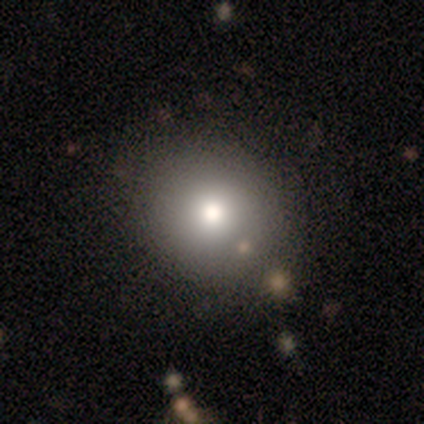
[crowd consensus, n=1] Smooth or featured?
  - smooth: 100% *
  - featured or disk: 0%
  - star or artifact: 0%
How rounded?
  - round: 100% *
  - in between: 0%
  - cigar-shaped: 0%
Merging?
  - none: 100% *
  - minor disturbance: 0%
  - major disturbance: 0%
  - merger: 0%